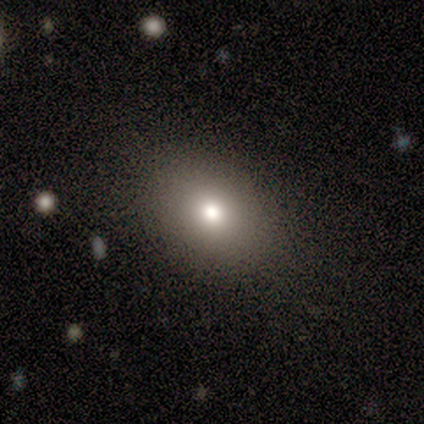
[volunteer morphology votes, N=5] Smooth or featured?
  - smooth: 80% *
  - featured or disk: 20%
  - star or artifact: 0%
How rounded?
  - in between: 75% *
  - round: 25%
  - cigar-shaped: 0%
Merging?
  - none: 100% *
  - minor disturbance: 0%
  - major disturbance: 0%
  - merger: 0%